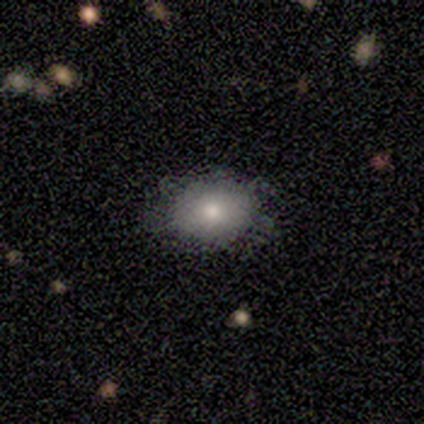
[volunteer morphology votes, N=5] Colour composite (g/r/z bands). It shows a smooth galaxy with no disk features (80%) that is in between round and cigar-shaped (100%). Merging: none (40%).